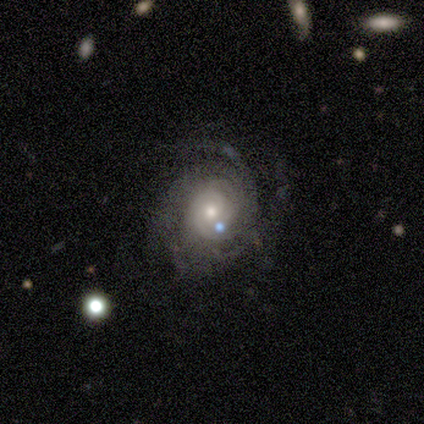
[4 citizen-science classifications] This is clearly a featured or disk galaxy (100%). It is clearly not viewed edge-on (100%). Bar: likely no (75%). Spiral arm pattern: likely yes (75%). Spiral arm count: likely 3 (67%). Spiral winding: likely tight (67%). Central bulge: likely small (75%). Merging: likely none (75%).